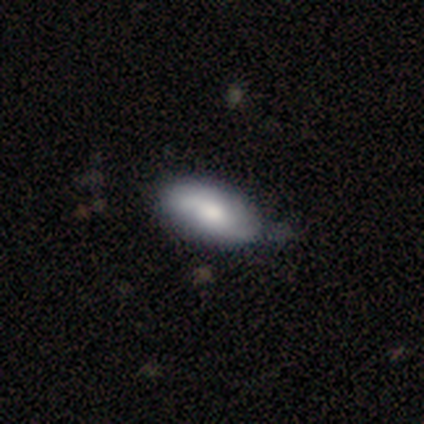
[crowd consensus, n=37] A featured or disk galaxy (57%) with no bar (58%), 2 (92%) medium (50%, tied with loose) spiral arms (63%) and a moderate central bulge (63%). Merging: none (46%).